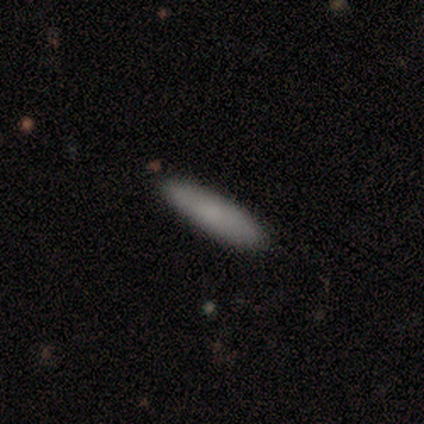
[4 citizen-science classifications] Smooth or featured? 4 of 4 (100%) said smooth. How rounded? 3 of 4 (75%) said cigar-shaped. Merging? 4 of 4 (100%) said none.